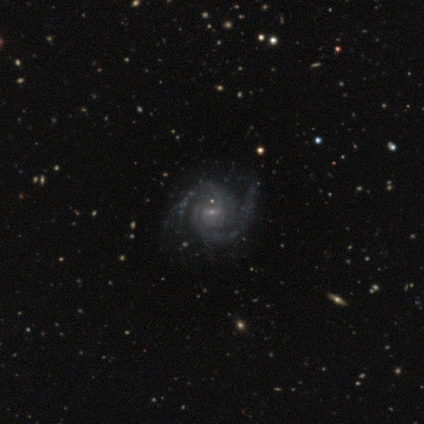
A featured or disk galaxy (80%) with no bar (67%), 2 (67%) medium (67%) spiral arms (100%) and no central bulge (67%).

Vote fractions:
- Smooth or featured? featured or disk: 80% / star or artifact: 20% / smooth: 0%
- Edge-on disk? no: 75% / yes: 25%
- Bar? no: 67% / strong: 33% / weak: 0%
- Spiral arms? yes: 100% / no: 0%
- Spiral winding? medium: 67% / tight: 33% / loose: 0%
- Spiral arm count? 2: 67% / 3: 33% / 1: 0% / 4: 0% / more than 4: 0% / can't tell: 0%
- Bulge size? none: 67% / small: 33% / dominant: 0% / large: 0% / moderate: 0%
- Merging? none: 100% / minor disturbance: 0% / major disturbance: 0% / merger: 0%